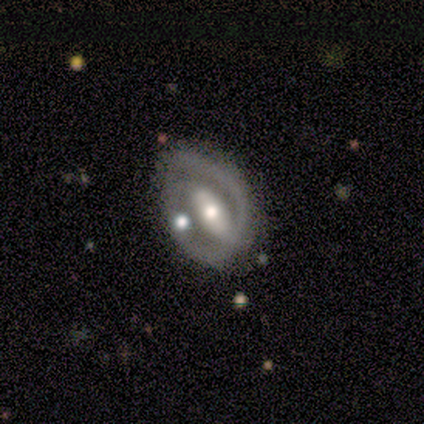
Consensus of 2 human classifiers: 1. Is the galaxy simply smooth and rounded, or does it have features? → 50% smooth (tied), 50% featured or disk (tied), 0% star or artifact.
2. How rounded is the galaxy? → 100% round, 0% in between, 0% cigar-shaped.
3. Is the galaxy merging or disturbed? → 50% none (tied), 50% minor disturbance (tied), 0% major disturbance, 0% merger.